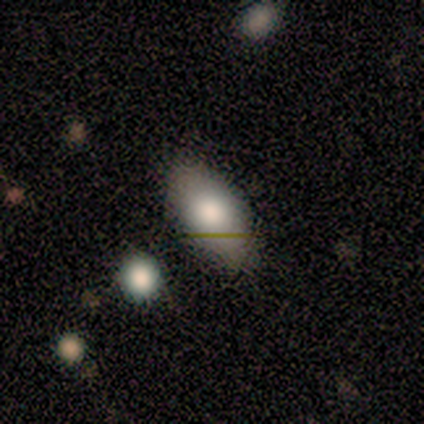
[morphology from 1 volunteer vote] Smooth or featured? 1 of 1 (100%) said smooth. How rounded? 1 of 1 (100%) said in between. Merging? 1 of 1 (100%) said none.